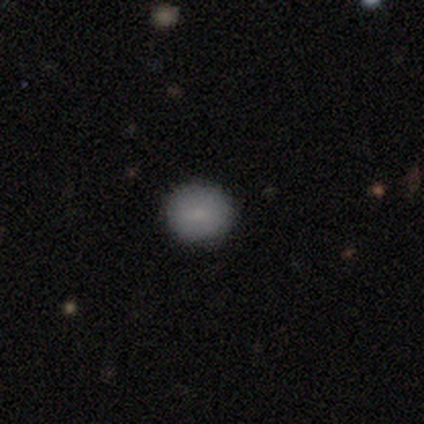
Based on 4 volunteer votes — Overall: smooth (75%). How rounded: round (67%; in between 33%). Merging: none (100%).